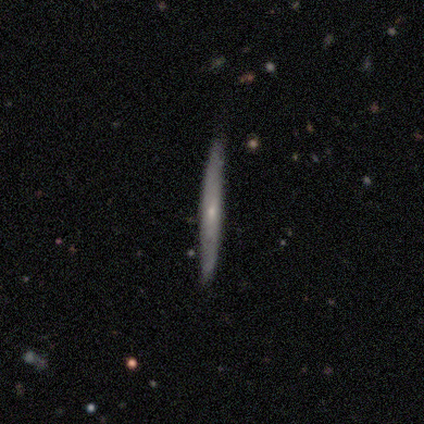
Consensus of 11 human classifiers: Smooth or featured: featured or disk — 64% (smooth — 18%)
Edge-on disk: yes — 100%
Edge-on bulge: none — 57% (rounded — 43%)
Merging: none — 89% (minor disturbance — 11%)